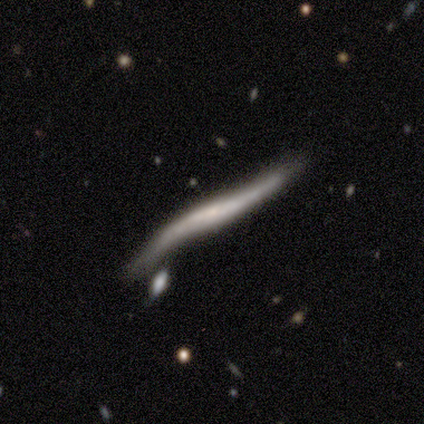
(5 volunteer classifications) smooth-or-featured: featured or disk: 60% | smooth: 40% | star or artifact: 0%
  disk-edge-on: yes: 67% | no: 33%
    edge-on-bulge: boxy: 50% (tied) | rounded: 50% (tied) | none: 0%
  merging: none: 40% (tied) | merger: 40% (tied) | major disturbance: 20% | minor disturbance: 0%